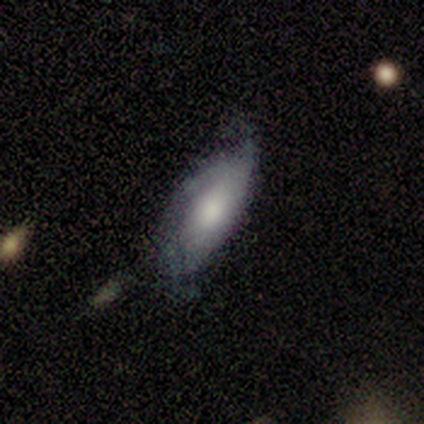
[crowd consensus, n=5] Morphology: type=smooth (60%); roundness=in between (100%); merging=none (40%, tied with minor disturbance).